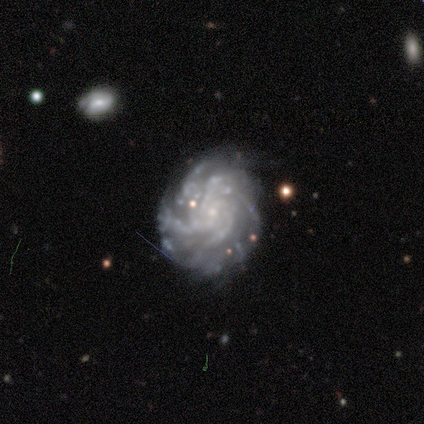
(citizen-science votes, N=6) smooth_or_featured: featured or disk (p=1.00)
disk_edge_on: no (p=1.00)
bar: weak (p=0.50) [tied with: no p=0.50]
has_spiral_arms: yes (p=1.00)
spiral_winding: tight (p=1.00)
spiral_arm_count: more than 4 (p=0.50) [alt: can't tell p=0.33]
bulge_size: small (p=0.67) [alt: none p=0.33]
merging: none (p=0.50) [tied with: minor disturbance p=0.50]